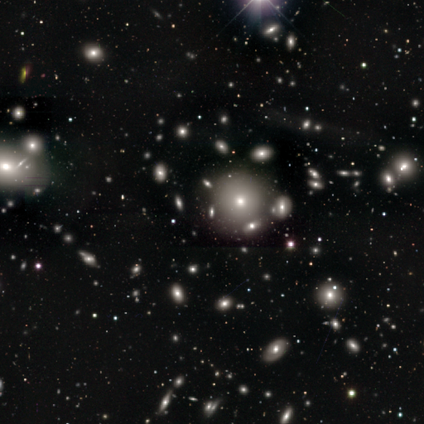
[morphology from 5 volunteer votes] This appears to be a smooth galaxy with no disk features (60%) that is round (67%). Merging: none (75%).